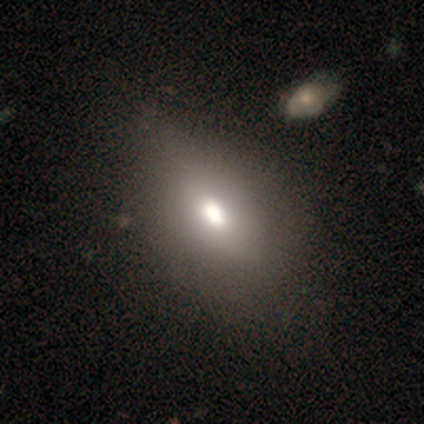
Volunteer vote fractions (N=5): Smooth or featured? smooth (80%)
How rounded? in between (100%)
Merging? none (75%)